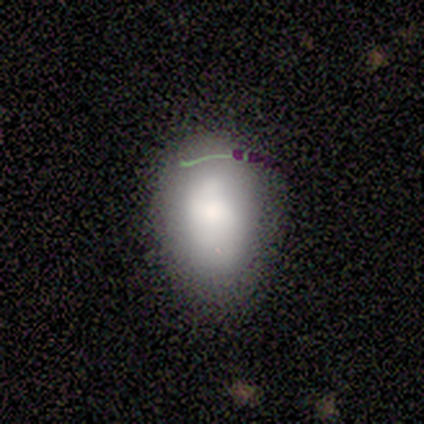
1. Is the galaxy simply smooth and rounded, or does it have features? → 80% smooth, 20% star or artifact, 0% featured or disk.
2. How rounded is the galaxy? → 50% round (tied), 50% in between (tied), 0% cigar-shaped.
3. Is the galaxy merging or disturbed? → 75% none, 25% minor disturbance, 0% major disturbance, 0% merger.